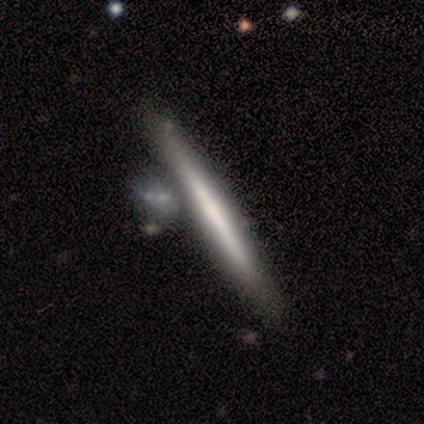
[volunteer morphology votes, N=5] This appears to be a featured or disk galaxy (100%) viewed edge-on (100%) with no central bulge (100%). Merging: none (80%).